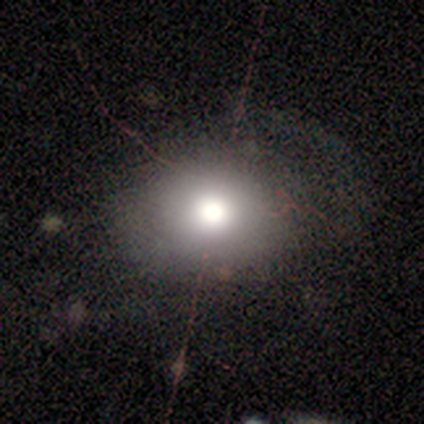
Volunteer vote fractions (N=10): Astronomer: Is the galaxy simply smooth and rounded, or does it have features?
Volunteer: smooth — 60%.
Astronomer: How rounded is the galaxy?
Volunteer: in between — 67%.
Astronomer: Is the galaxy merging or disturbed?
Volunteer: none — 71%.